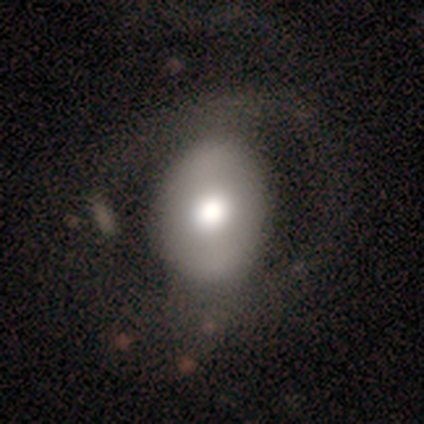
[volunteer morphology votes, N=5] Q: Smooth or featured?
A: smooth (40%); tied with: featured or disk (40%)
Q: How rounded?
A: in between (100%)
Q: Merging?
A: merger (50%); runner-up: none (25%)